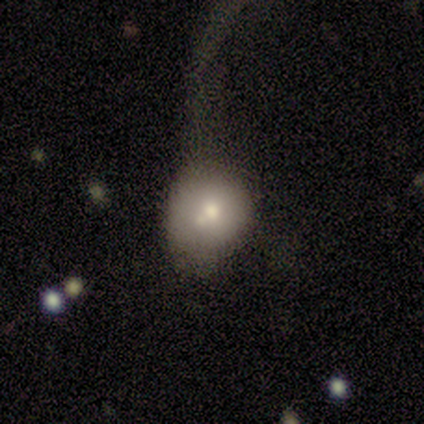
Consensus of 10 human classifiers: Morphology: type=smooth (60%); roundness=round (83%); merging=none (40%).